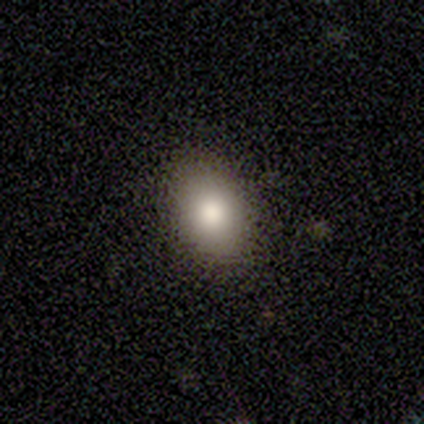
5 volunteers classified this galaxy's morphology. This appears to be a smooth galaxy with no disk features (60%) that is in between round and cigar-shaped (100%). Merging: none (100%).